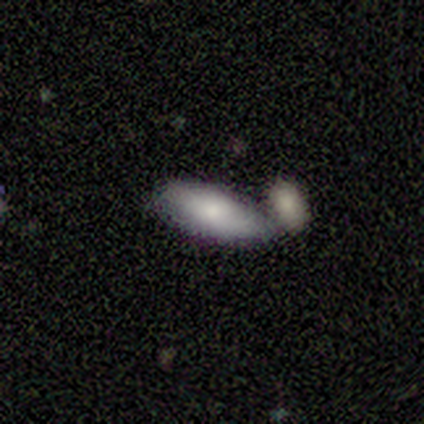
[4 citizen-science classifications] A smooth galaxy with no disk features (75%) that is in between round and cigar-shaped (100%). Merging: merger (67%).